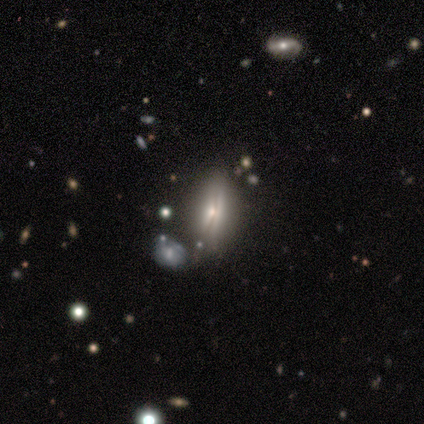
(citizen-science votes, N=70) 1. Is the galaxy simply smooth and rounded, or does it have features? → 63% featured or disk, 31% smooth, 6% star or artifact.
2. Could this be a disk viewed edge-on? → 55% yes, 45% no.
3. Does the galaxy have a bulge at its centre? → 75% rounded, 12% boxy, 12% none.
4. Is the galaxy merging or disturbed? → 67% none, 17% merger, 12% minor disturbance, 5% major disturbance.